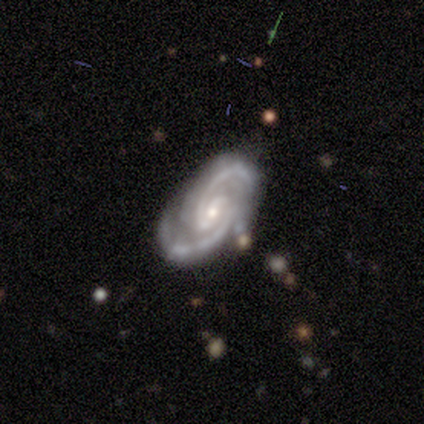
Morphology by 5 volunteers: featured or disk 100%, smooth 0%, star or artifact 0%. Down the decision tree: edge-on disk — no (100%); bar — weak (60%); spiral arms — yes (100%); spiral arm count — 2 (100%); spiral winding — medium (60%); bulge size — small (80%); merging — none (100%).